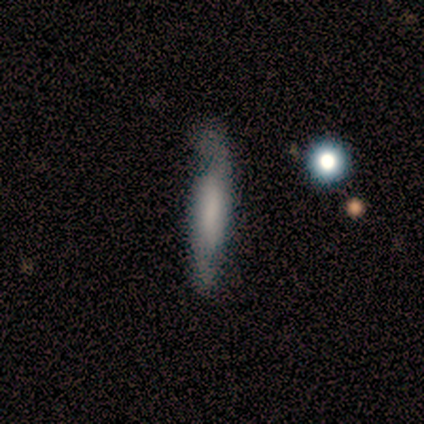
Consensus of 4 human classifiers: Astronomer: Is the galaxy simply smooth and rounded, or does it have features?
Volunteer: smooth — 50%, tied with featured or disk at 50%.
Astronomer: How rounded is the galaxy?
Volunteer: cigar-shaped — 100%.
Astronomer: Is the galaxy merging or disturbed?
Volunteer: none — 50%, tied with minor disturbance at 50%.